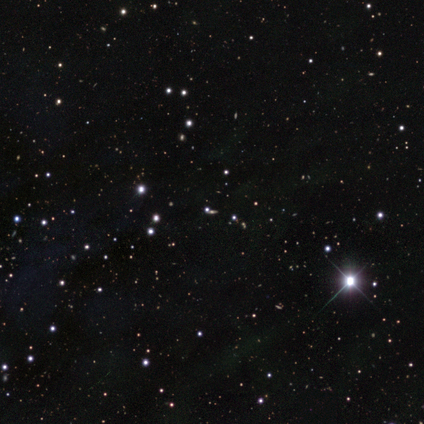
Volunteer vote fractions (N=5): Overall: star or artifact (100%).